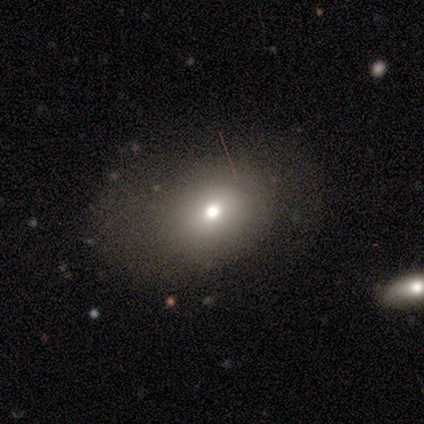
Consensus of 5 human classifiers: Smooth or featured?
  - smooth: 60% *
  - featured or disk: 20%
  - star or artifact: 20%
How rounded?
  - round: 67% *
  - in between: 33%
  - cigar-shaped: 0%
Merging?
  - none: 100% *
  - minor disturbance: 0%
  - major disturbance: 0%
  - merger: 0%